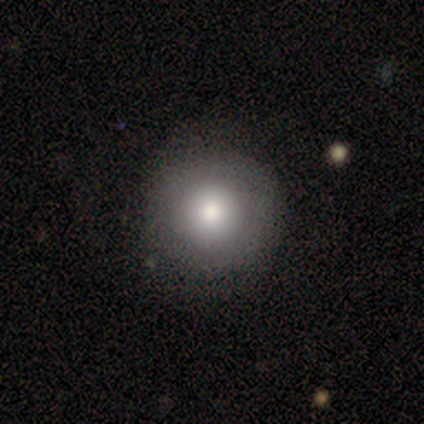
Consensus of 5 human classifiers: Q: Smooth or featured?
A: smooth (100%)
Q: How rounded?
A: round (100%)
Q: Merging?
A: none (60%); runner-up: minor disturbance (20%)